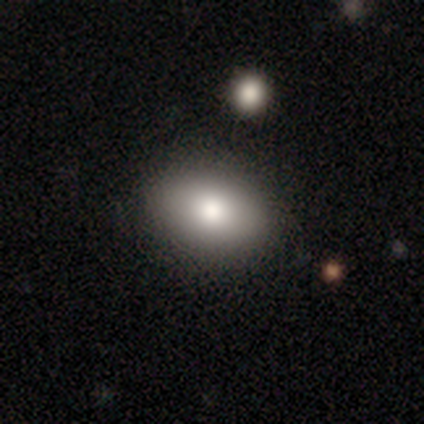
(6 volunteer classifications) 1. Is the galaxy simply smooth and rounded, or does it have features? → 83% smooth, 17% star or artifact, 0% featured or disk.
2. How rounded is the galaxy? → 100% in between, 0% round, 0% cigar-shaped.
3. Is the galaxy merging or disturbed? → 80% none, 20% minor disturbance, 0% major disturbance, 0% merger.